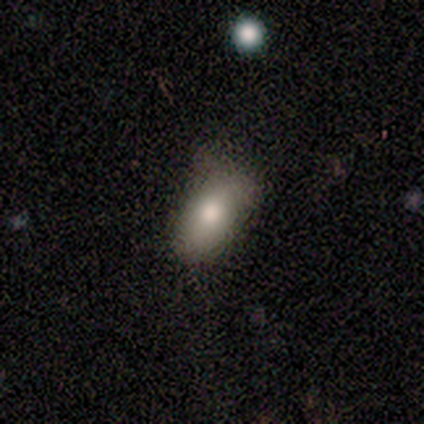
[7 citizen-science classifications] Overall: smooth (71%). How rounded: in between (60%; round 40%). Merging: minor disturbance (57%; none 43%).